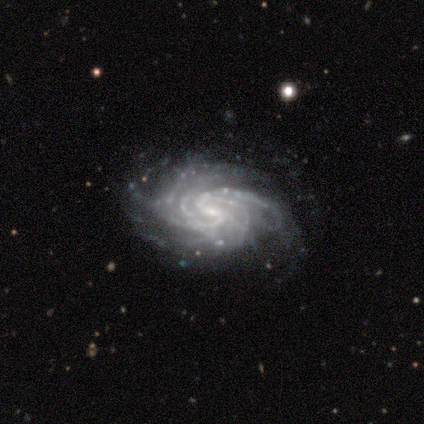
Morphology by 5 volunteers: A featured or disk galaxy (100%) with no bar (60%), 4 (60%) medium (60%) spiral arms (100%) and a small central bulge (100%).

Vote fractions:
- Smooth or featured? featured or disk: 100% / smooth: 0% / star or artifact: 0%
- Edge-on disk? no: 100% / yes: 0%
- Bar? no: 60% / weak: 40% / strong: 0%
- Spiral arms? yes: 100% / no: 0%
- Spiral winding? medium: 60% / tight: 40% / loose: 0%
- Spiral arm count? 4: 60% / more than 4: 20% / can't tell: 20% / 1: 0% / 2: 0% / 3: 0%
- Bulge size? small: 100% / dominant: 0% / large: 0% / moderate: 0% / none: 0%
- Merging? none: 80% / minor disturbance: 20% / major disturbance: 0% / merger: 0%